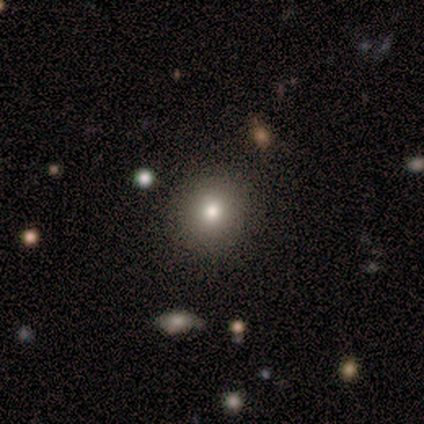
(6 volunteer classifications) smooth_or_featured: smooth (p=0.67) [alt: featured or disk p=0.17]
how_rounded: round (p=1.00)
merging: none (p=1.00)